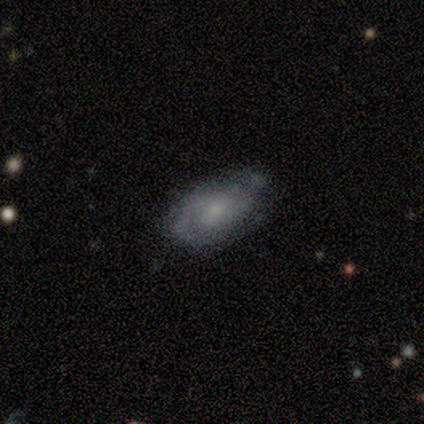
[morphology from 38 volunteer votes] featured or disk 68%, smooth 24%, star or artifact 8%. Down the decision tree: edge-on disk — no (96%); bar — no (68%); spiral arms — yes (88%); spiral arm count — 2 (45%); spiral winding — tight (45%); bulge size — small (56%); merging — none (63%).